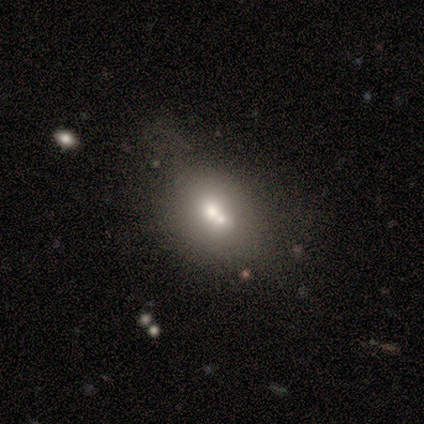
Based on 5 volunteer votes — Smooth or featured?
  - smooth: 40% * (tied)
  - star or artifact: 40% * (tied)
  - featured or disk: 20%
How rounded?
  - round: 50% * (tied)
  - in between: 50% * (tied)
  - cigar-shaped: 0%
Merging?
  - none: 67% *
  - merger: 33%
  - minor disturbance: 0%
  - major disturbance: 0%